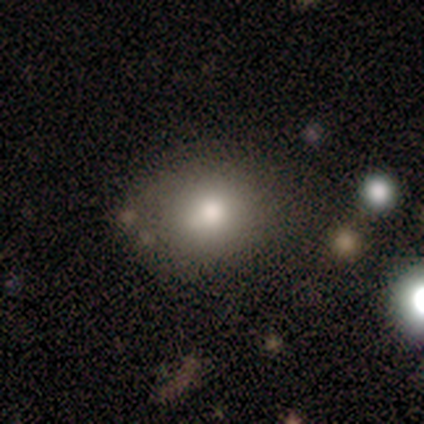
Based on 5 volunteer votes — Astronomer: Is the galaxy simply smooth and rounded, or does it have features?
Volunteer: smooth — 60% (runner-up: featured or disk, 40%).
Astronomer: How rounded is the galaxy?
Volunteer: in between — 100%.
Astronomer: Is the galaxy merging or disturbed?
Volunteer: none — 60% (runner-up: minor disturbance, 40%).